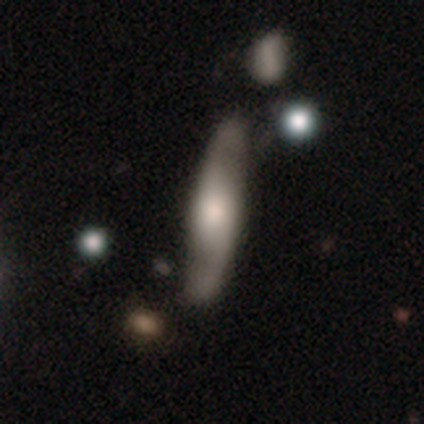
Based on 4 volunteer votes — Overall: featured or disk (75%). Edge-on disk: yes (67%; no 33%). Edge-on bulge: none (50%, tied with rounded). Merging: minor disturbance (50%; none 25%).